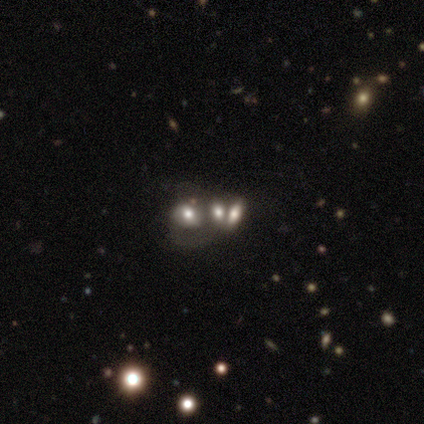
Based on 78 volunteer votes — smooth 41%, featured or disk 35%, star or artifact 24%. Down the decision tree: how rounded — in between (69%); merging — merger (56%).